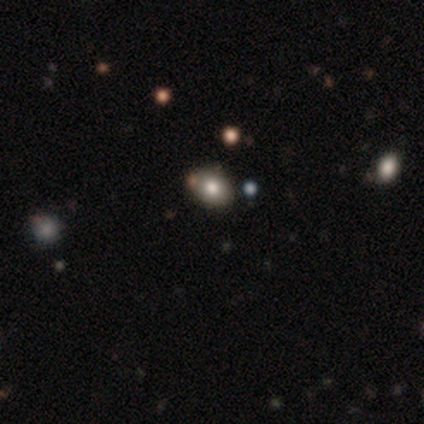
Volunteers were most divided on "how rounded" (2-way tie): round: 50%, in between: 50%, cigar-shaped: 0%; "merging" (2-way tie): none: 50%, minor disturbance: 50%, major disturbance: 0%, merger: 0%. More confident: smooth or featured — smooth (100%).